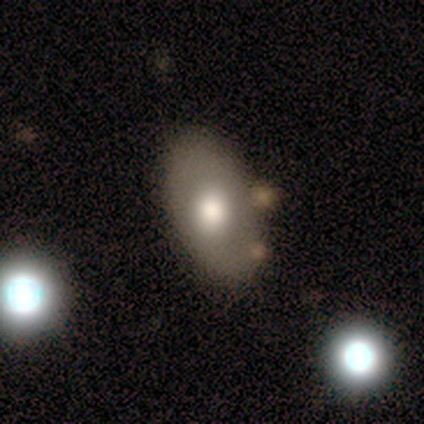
Smooth or featured? 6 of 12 (50%) said smooth. How rounded? 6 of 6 (100%) said in between. Merging? 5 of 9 (56%) said none.